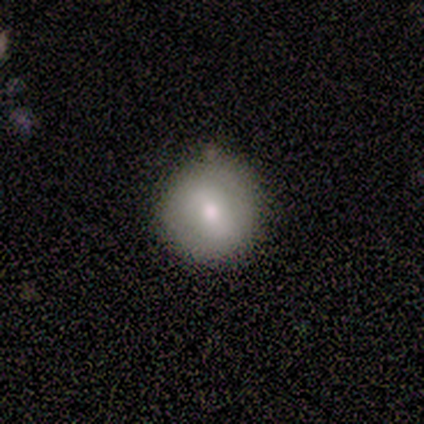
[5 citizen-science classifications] This is likely a smooth galaxy (60%). How rounded: clearly round (100%). Merging: likely none (60%).